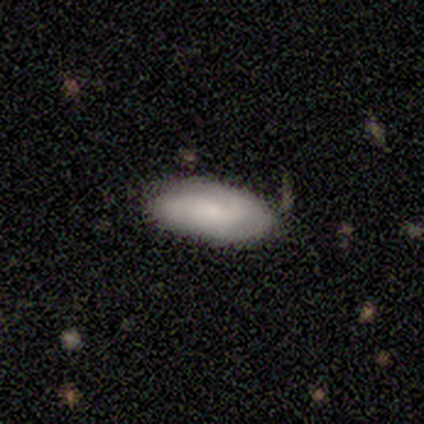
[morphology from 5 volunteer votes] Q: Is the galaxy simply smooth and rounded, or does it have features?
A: smooth — 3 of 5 (60%).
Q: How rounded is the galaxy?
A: in between — 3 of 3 (100%).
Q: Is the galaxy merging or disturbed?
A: none — 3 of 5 (60%).